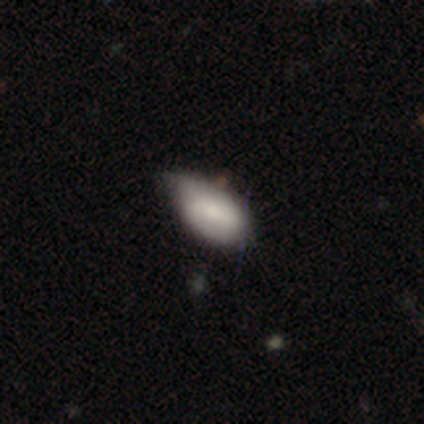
This appears to be a smooth galaxy with no disk features (59%) that is in between round and cigar-shaped (91%). Merging: minor disturbance (69%).